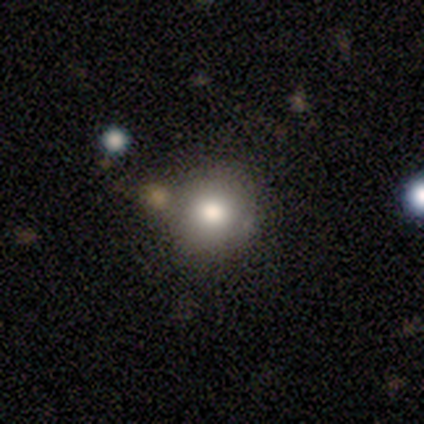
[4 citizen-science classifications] Smooth or featured? 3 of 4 (75%) said smooth. How rounded? 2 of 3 (67%) said round. Merging? 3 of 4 (75%) said none.